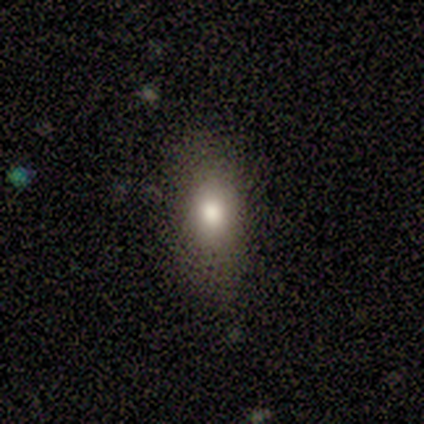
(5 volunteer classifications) Smooth or featured? smooth (60%)
How rounded? in between (67%)
Merging? none (80%)